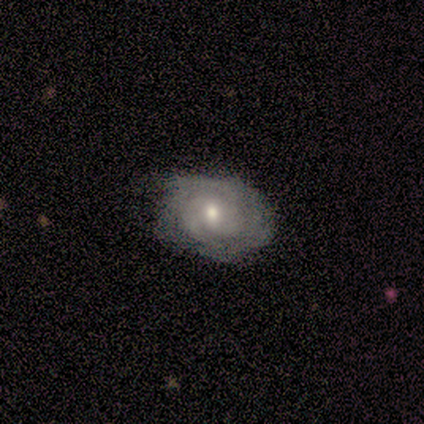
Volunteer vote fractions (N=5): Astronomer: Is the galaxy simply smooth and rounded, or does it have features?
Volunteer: featured or disk — 80%.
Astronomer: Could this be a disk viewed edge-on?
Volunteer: no — 100%.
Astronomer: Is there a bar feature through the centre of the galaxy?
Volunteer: weak — 50%, tied with no at 50%.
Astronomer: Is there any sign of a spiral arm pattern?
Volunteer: yes — 100%.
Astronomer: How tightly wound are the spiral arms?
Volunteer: tight — 75%.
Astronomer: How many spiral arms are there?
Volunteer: can't tell — 100%.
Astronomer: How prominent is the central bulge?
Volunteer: moderate — 50%, tied with small at 50%.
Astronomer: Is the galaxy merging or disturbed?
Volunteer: none — 75%.